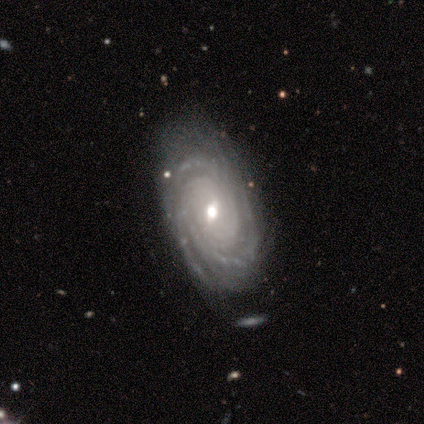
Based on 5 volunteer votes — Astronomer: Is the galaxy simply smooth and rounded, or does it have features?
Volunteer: featured or disk — 100%.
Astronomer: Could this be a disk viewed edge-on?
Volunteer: no — 100%.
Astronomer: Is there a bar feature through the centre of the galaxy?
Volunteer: weak — 100%.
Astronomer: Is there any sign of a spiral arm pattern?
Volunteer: yes — 100%.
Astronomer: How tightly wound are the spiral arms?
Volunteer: tight — 60% (runner-up: medium, 40%).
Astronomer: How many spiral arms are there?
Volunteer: can't tell — 40% (runner-up: 2, 20%).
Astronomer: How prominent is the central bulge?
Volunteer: moderate — 60% (runner-up: small, 40%).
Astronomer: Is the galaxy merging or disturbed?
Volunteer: none — 100%.